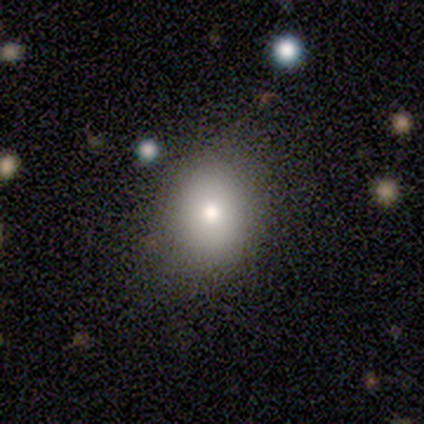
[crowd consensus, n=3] A smooth galaxy with no disk features (67%) that is round (50%, tied with in between). Merging: none (100%).